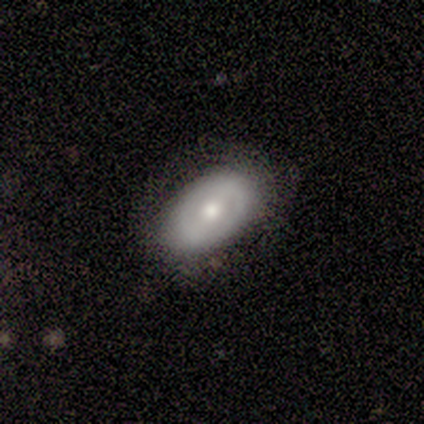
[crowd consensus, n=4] Smooth or featured: smooth — 75% (featured or disk — 25%)
How rounded: in between — 67% (round — 33%)
Merging: none — 75% (minor disturbance — 25%)